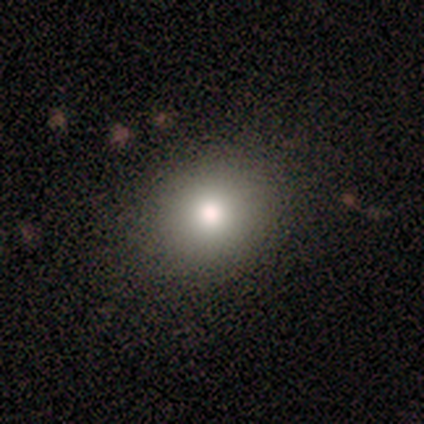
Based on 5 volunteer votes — Smooth or featured?
  - smooth: 60% *
  - featured or disk: 20%
  - star or artifact: 20%
How rounded?
  - round: 100% *
  - in between: 0%
  - cigar-shaped: 0%
Merging?
  - none: 50% *
  - major disturbance: 25%
  - merger: 25%
  - minor disturbance: 0%